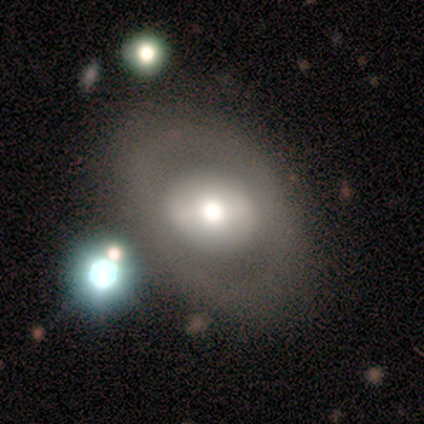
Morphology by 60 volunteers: Smooth or featured? featured or disk (43%)
Edge-on disk? no (96%)
Bar? no (64%)
Spiral arms? no (100%)
Bulge size? moderate (64%)
Merging? none (49%)